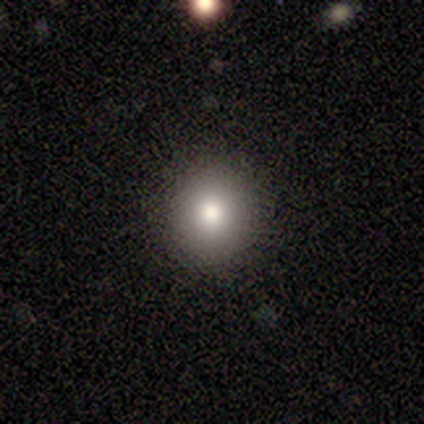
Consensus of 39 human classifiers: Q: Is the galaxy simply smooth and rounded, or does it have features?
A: smooth — 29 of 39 (74%).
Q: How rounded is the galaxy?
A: round — 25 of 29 (86%).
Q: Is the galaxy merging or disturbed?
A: none — 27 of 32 (84%).